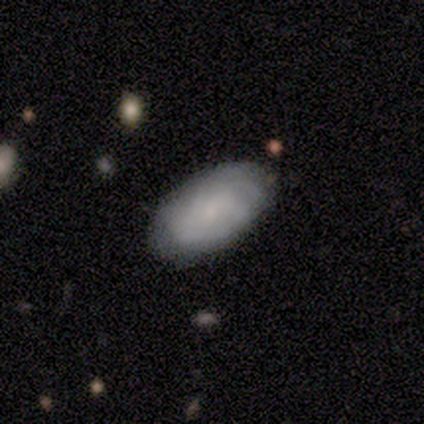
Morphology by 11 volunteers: smooth-or-featured: smooth: 64% | featured or disk: 27% | star or artifact: 9%
  how-rounded: in between: 100% | round: 0% | cigar-shaped: 0%
  merging: none: 80% | minor disturbance: 10% | major disturbance: 10% | merger: 0%